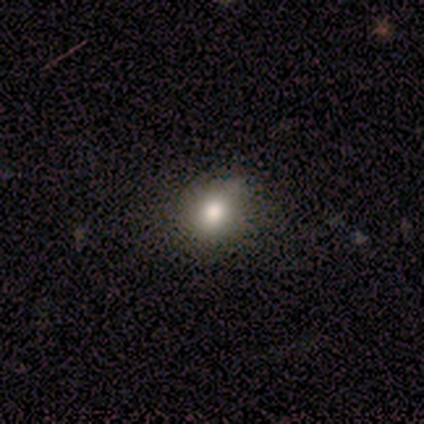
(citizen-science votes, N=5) smooth-or-featured: smooth: 80% | star or artifact: 20% | featured or disk: 0%
  how-rounded: round: 75% | in between: 25% | cigar-shaped: 0%
  merging: none: 75% | minor disturbance: 25% | major disturbance: 0% | merger: 0%